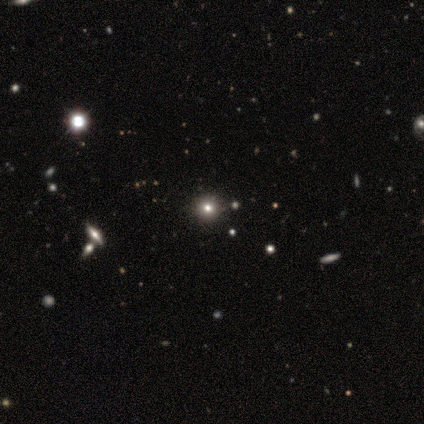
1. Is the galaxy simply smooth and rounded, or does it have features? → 56% smooth, 38% star or artifact, 6% featured or disk.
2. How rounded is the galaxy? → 89% round, 11% in between, 0% cigar-shaped.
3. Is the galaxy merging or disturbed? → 100% none, 0% minor disturbance, 0% major disturbance, 0% merger.